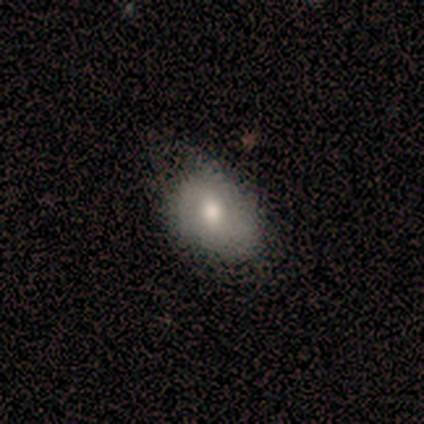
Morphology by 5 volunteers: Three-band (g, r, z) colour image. It shows a smooth galaxy with no disk features (80%) that is in between round and cigar-shaped (75%). Merging: none (80%).